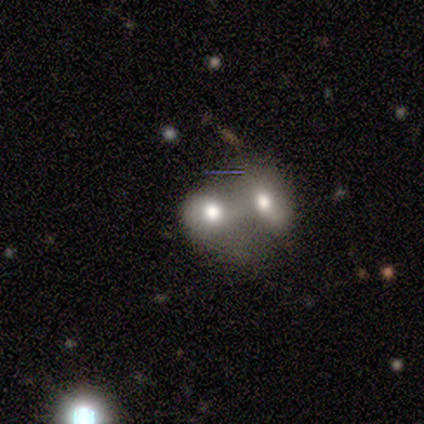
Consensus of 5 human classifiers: Q: Smooth or featured?
A: smooth (80%); runner-up: star or artifact (20%)
Q: How rounded?
A: in between (75%); runner-up: round (25%)
Q: Merging?
A: merger (75%); runner-up: minor disturbance (25%)